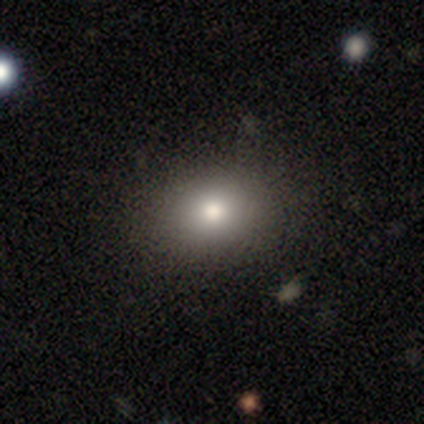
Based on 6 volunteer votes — A smooth galaxy with no disk features (50%) that is in between round and cigar-shaped (67%).

Vote fractions:
- Smooth or featured? smooth: 50% / star or artifact: 33% / featured or disk: 17%
- How rounded? in between: 67% / round: 33% / cigar-shaped: 0%
- Merging? none: 75% / minor disturbance: 25% / major disturbance: 0% / merger: 0%